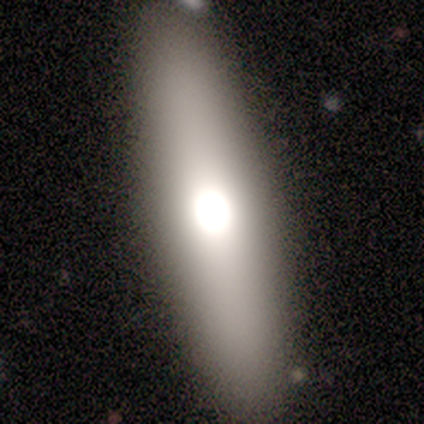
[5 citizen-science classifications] This is marginally a smooth galaxy (40%, tied with featured or disk). How rounded: possibly in between (50%, tied with cigar-shaped). Merging: clearly none (100%).